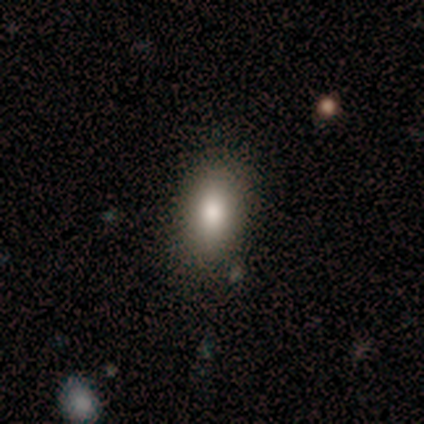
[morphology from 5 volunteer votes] A smooth galaxy with no disk features (60%) that is in between round and cigar-shaped (100%).

Vote fractions:
- Smooth or featured? smooth: 60% / featured or disk: 40% / star or artifact: 0%
- How rounded? in between: 100% / round: 0% / cigar-shaped: 0%
- Merging? none: 100% / minor disturbance: 0% / major disturbance: 0% / merger: 0%